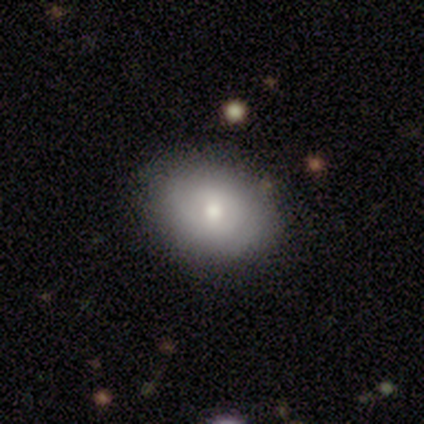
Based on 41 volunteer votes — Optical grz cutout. It shows a smooth galaxy with no disk features (59%) that is in between round and cigar-shaped (62%). Merging: none (76%).